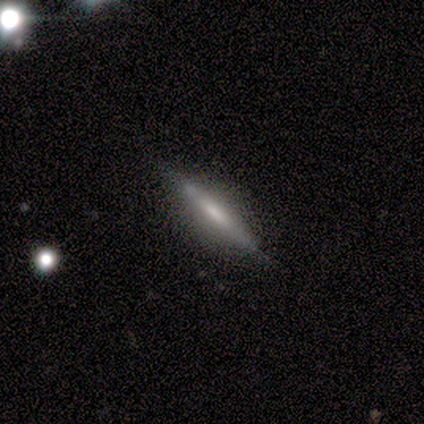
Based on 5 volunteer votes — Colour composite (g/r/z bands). It shows a featured or disk galaxy (100%) viewed edge-on (100%) with no central bulge (60%). Merging: none (80%).